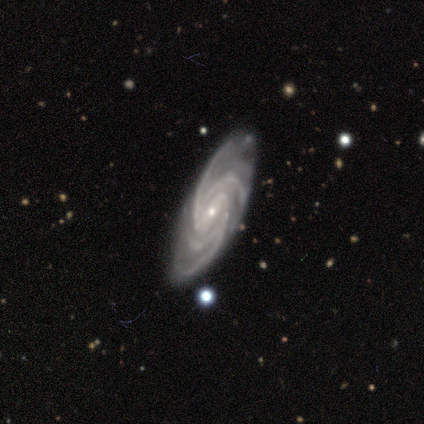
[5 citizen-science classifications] Overall: featured or disk (80%). Edge-on disk: no (100%). Bar: no (75%). Spiral arms: yes (100%). Spiral arm count: 4 (100%). Spiral winding: tight (100%). Bulge size: small (100%). Merging: none (100%).